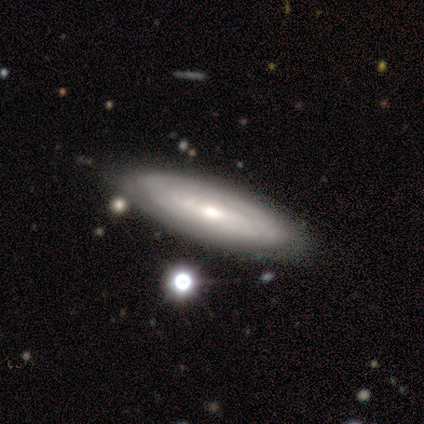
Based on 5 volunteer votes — Volunteers were most divided on "bulge size" (2-way tie): moderate: 50%, small: 50%, dominant: 0%, large: 0%, none: 0%. More confident: edge-on disk — no (100%); spiral arms — yes (100%); spiral winding — tight (100%); spiral arm count — can't tell (100%); merging — none (100%); smooth or featured — featured or disk (80%); bar — weak (75%).